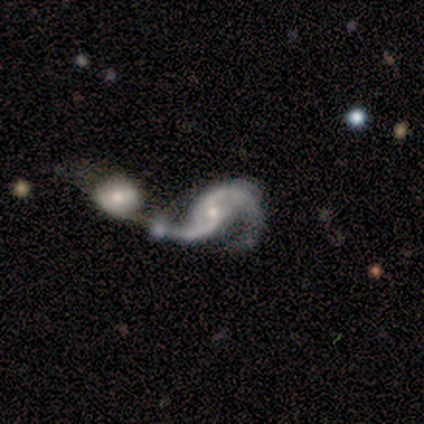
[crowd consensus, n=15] Volunteers were most divided on "bar": no: 62%, weak: 23%, strong: 15%. More confident: edge-on disk — no (100%); spiral arm count — 2 (100%); spiral arms — yes (92%); smooth or featured — featured or disk (87%); merging — merger (86%); bulge size — small (77%); spiral winding — loose (75%).